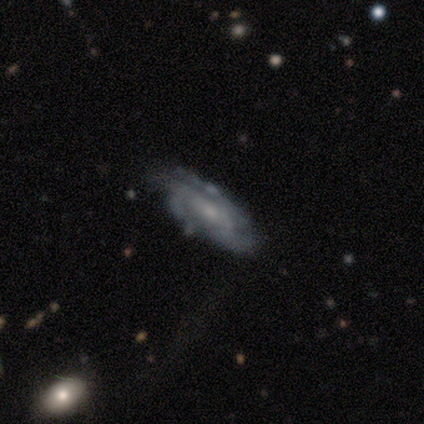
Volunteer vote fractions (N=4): Volunteers were most divided on "bar" (2-way tie): weak: 50%, no: 50%, strong: 0%; "spiral winding" (2-way tie): tight: 50%, medium: 50%, loose: 0%; "spiral arm count" (4-way tie): 2: 25%, 3: 25%, 4: 25%, can't tell: 25%, 1: 0%, more than 4: 0%; "bulge size" (2-way tie): moderate: 50%, small: 50%, dominant: 0%, large: 0%, none: 0%. More confident: smooth or featured — featured or disk (100%); edge-on disk — no (100%); spiral arms — yes (100%); merging — none (50%).